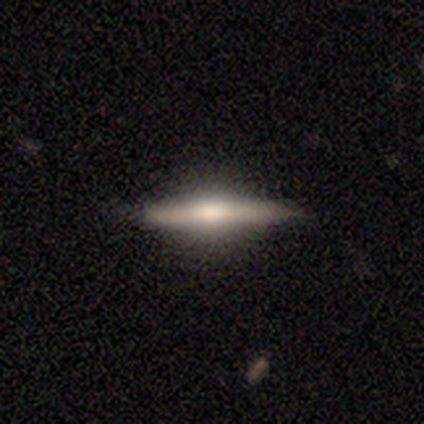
A featured or disk galaxy (68%) viewed edge-on (100%) with a rounded central bulge (67%).

Vote fractions:
- Smooth or featured? featured or disk: 68% / smooth: 25% / star or artifact: 8%
- Edge-on disk? yes: 100% / no: 0%
- Edge-on bulge? rounded: 67% / boxy: 26% / none: 7%
- Merging? none: 49% / minor disturbance: 14% / major disturbance: 0% / merger: 0%